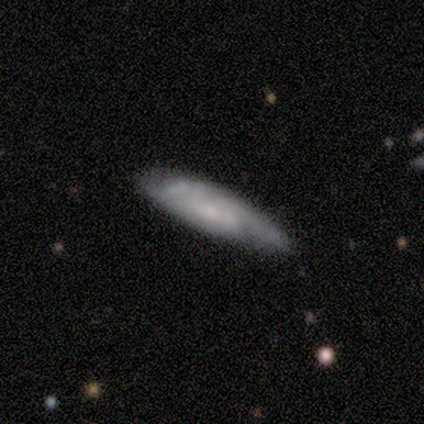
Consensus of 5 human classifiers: smooth-or-featured: featured or disk: 80% | smooth: 20% | star or artifact: 0%
  disk-edge-on: yes: 50% (tied) | no: 50% (tied)
    edge-on-bulge: boxy: 50% (tied) | none: 50% (tied) | rounded: 0%
  merging: none: 80% | minor disturbance: 20% | major disturbance: 0% | merger: 0%